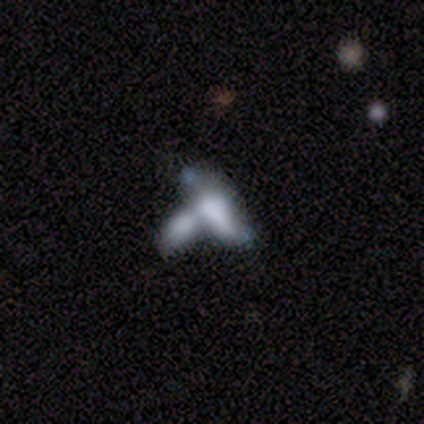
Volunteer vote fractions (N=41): This appears to be a smooth galaxy with no disk features (44%) that is in between round and cigar-shaped (72%). Merging: merger (72%).